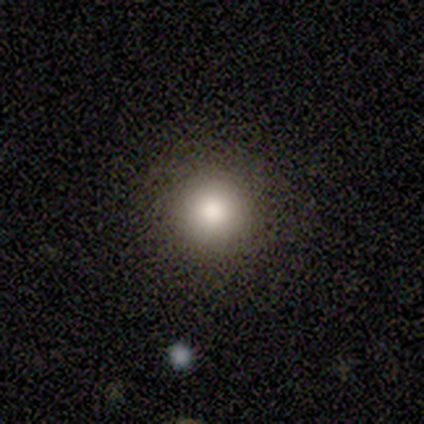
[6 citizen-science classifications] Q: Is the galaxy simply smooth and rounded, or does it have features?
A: smooth — 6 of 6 (100%).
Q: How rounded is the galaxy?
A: round — 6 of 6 (100%).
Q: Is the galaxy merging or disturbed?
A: none — 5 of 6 (83%).